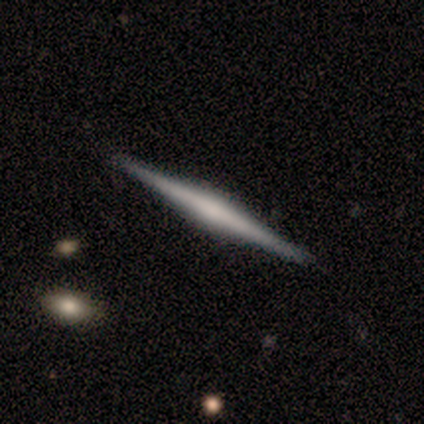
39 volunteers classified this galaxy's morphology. This is likely a featured or disk galaxy (74%). It is clearly viewed edge-on (100%). Edge-on bulge: possibly rounded (59%). Merging: likely none (64%).